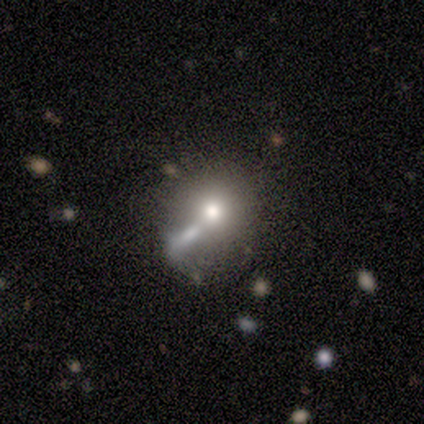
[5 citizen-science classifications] This appears to be a smooth galaxy with no disk features (60%) that is round (100%). Merging: major disturbance (40%).